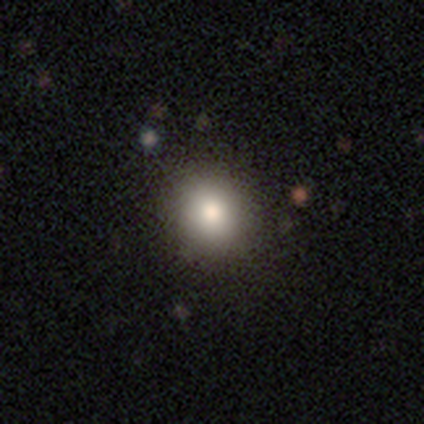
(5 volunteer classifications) Volunteers were most divided on "smooth or featured": smooth: 80%, featured or disk: 20%, star or artifact: 0%. More confident: how rounded — round (100%); merging — none (100%).